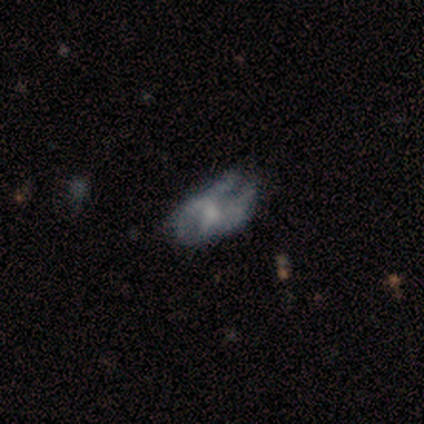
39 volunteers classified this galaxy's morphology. type=featured or disk (67%); edge-on=no (100%); bar=no (77%); spiral arms=no (73%); bulge=small (38%); merging=major disturbance (42%).